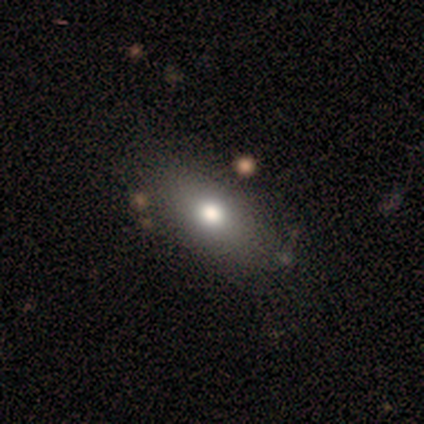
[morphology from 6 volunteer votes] smooth 67%, featured or disk 33%, star or artifact 0%. Down the decision tree: how rounded — in between (50%, tied with cigar-shaped); merging — none (100%).